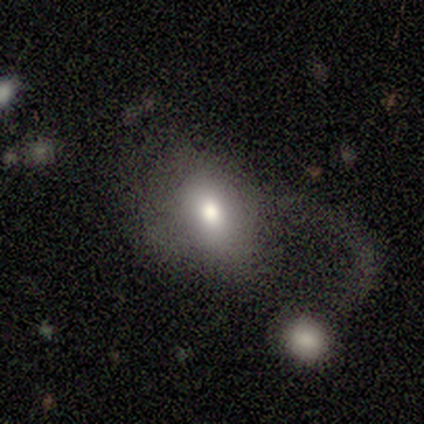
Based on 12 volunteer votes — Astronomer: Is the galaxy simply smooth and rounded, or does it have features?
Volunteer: smooth — 75%.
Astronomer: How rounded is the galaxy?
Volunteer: in between — 67%.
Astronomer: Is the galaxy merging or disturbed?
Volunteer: major disturbance — 50%.